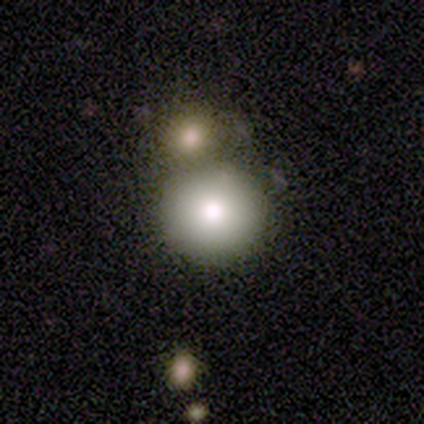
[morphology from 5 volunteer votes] Smooth or featured? 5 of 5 (100%) said smooth. How rounded? 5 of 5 (100%) said round. Merging? 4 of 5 (80%) said merger.